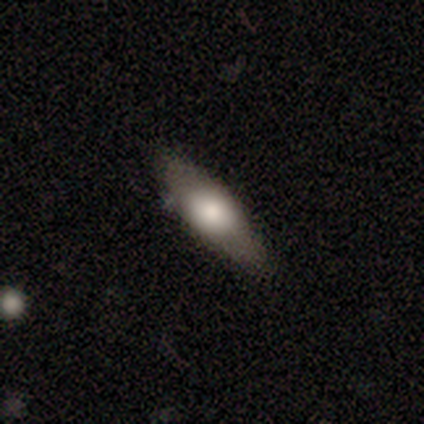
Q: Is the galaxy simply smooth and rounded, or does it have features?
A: featured or disk — 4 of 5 (80%).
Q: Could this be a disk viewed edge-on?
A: yes — 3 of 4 (75%).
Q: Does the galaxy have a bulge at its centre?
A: rounded — 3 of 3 (100%).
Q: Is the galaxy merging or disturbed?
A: none — 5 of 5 (100%).